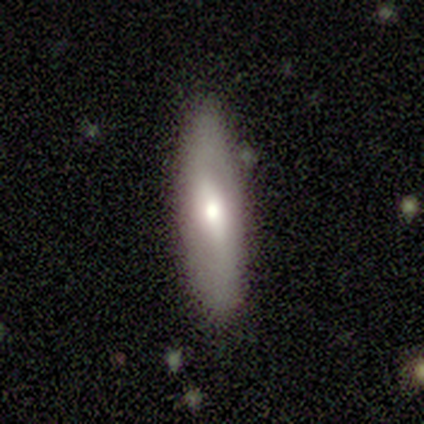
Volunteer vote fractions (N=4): A smooth galaxy with no disk features (50%, tied with featured or disk) that is cigar-shaped (100%).

Vote fractions:
- Smooth or featured? smooth: 50% (tied) / featured or disk: 50% (tied) / star or artifact: 0%
- How rounded? cigar-shaped: 100% / round: 0% / in between: 0%
- Merging? none: 100% / minor disturbance: 0% / major disturbance: 0% / merger: 0%